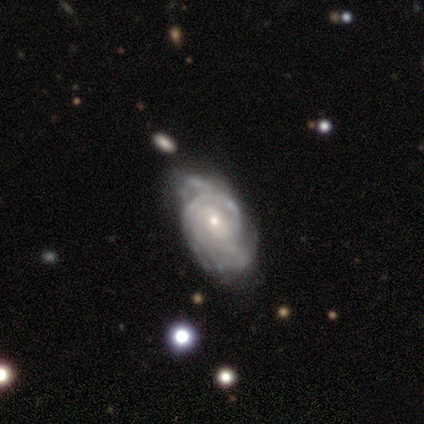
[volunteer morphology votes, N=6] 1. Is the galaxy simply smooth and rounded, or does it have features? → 100% featured or disk, 0% smooth, 0% star or artifact.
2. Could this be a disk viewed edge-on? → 100% no, 0% yes.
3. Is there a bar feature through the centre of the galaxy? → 67% no, 33% weak, 0% strong.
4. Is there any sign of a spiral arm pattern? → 100% yes, 0% no.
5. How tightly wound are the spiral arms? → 83% tight, 17% medium, 0% loose.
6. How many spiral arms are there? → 33% 2 (tied), 33% can't tell (tied), 17% 3, 17% 4, 0% 1, 0% more than 4.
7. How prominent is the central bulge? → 83% small, 17% moderate, 0% dominant, 0% large, 0% none.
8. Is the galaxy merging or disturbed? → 67% none, 33% minor disturbance, 0% major disturbance, 0% merger.